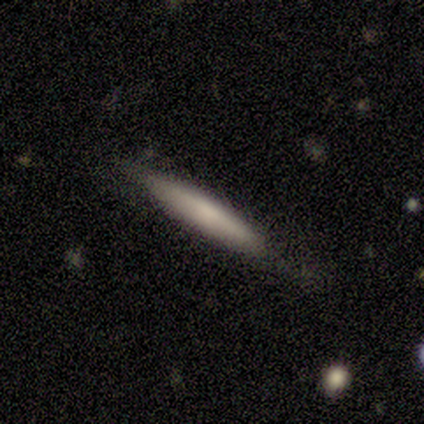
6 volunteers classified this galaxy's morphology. A smooth galaxy with no disk features (50%, tied with featured or disk) that is cigar-shaped (100%). Merging: none (67%).